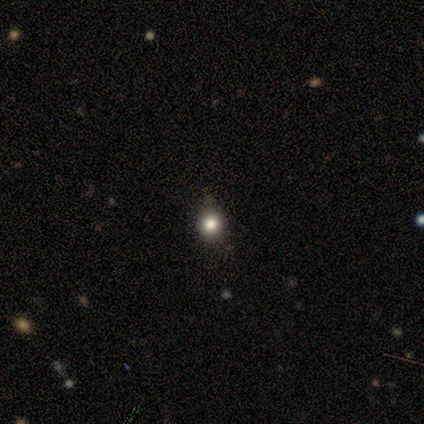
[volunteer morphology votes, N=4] Smooth or featured? 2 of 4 (50%, tied with featured or disk) said smooth. How rounded? 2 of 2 (100%) said round. Merging? 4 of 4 (100%) said none.